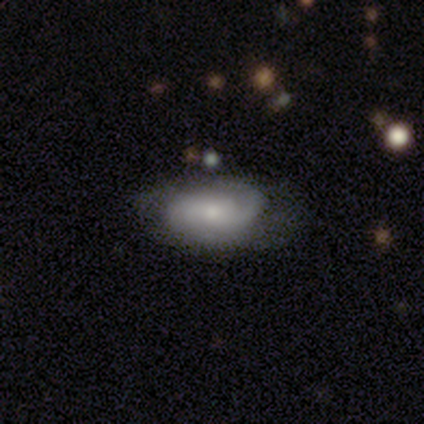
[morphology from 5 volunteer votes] A featured or disk galaxy (80%) with no bar (67%), 2 (50%, tied with can't tell) tight (50%, tied with medium) spiral arms (67%) and a small central bulge (100%).

Vote fractions:
- Smooth or featured? featured or disk: 80% / smooth: 20% / star or artifact: 0%
- Edge-on disk? no: 75% / yes: 25%
- Bar? no: 67% / strong: 33% / weak: 0%
- Spiral arms? yes: 67% / no: 33%
- Spiral winding? tight: 50% (tied) / medium: 50% (tied) / loose: 0%
- Spiral arm count? 2: 50% (tied) / can't tell: 50% (tied) / 1: 0% / 3: 0% / 4: 0% / more than 4: 0%
- Bulge size? small: 100% / dominant: 0% / large: 0% / moderate: 0% / none: 0%
- Merging? none: 100% / minor disturbance: 0% / major disturbance: 0% / merger: 0%